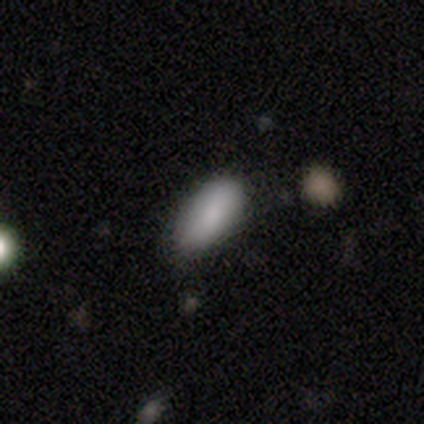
Morphology: type=smooth (100%); roundness=in between (100%); merging=none (75%).